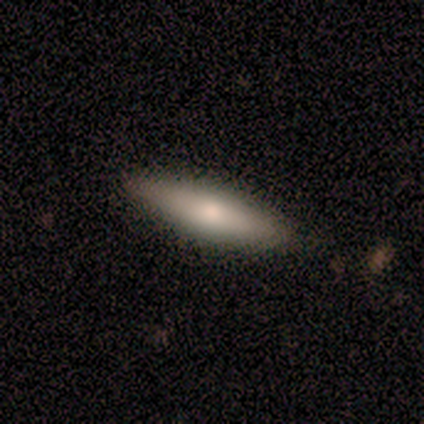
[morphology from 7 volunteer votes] Smooth or featured: smooth — 57% (featured or disk — 43%)
How rounded: cigar-shaped — 75% (in between — 25%)
Merging: none — 71% (minor disturbance — 29%)